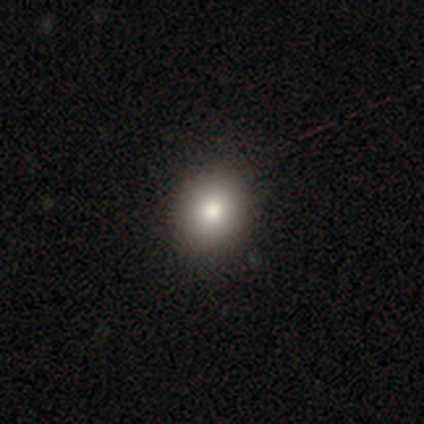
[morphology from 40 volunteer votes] Smooth or featured? smooth (80%)
How rounded? round (62%)
Merging? none (65%)